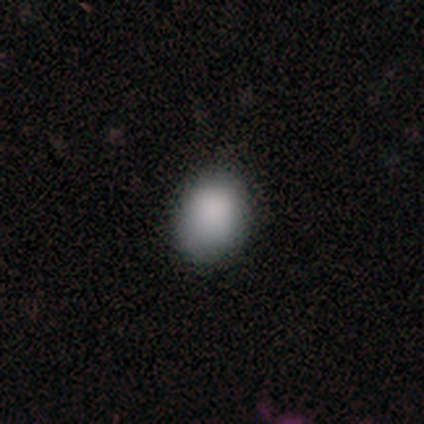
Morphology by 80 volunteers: A smooth galaxy with no disk features (90%) that is in between round and cigar-shaped (67%). Merging: none (45%).